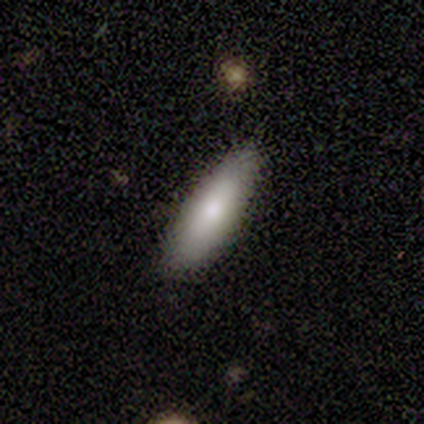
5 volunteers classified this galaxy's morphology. Volunteers were most divided on "how rounded" (2-way tie): in between: 50%, cigar-shaped: 50%, round: 0%. More confident: merging — none (100%); smooth or featured — smooth (80%).